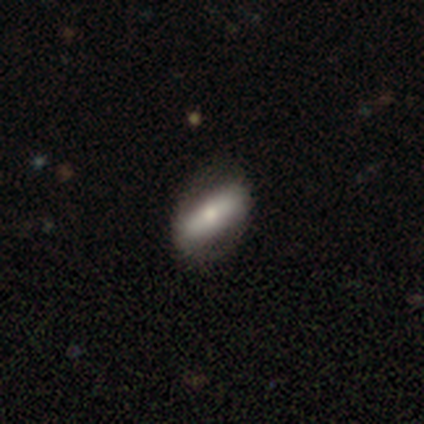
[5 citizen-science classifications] A featured or disk galaxy (100%) with a strong bar (40%, tied with no), no spiral arms (80%) and a moderate central bulge (80%). Merging: none (100%).